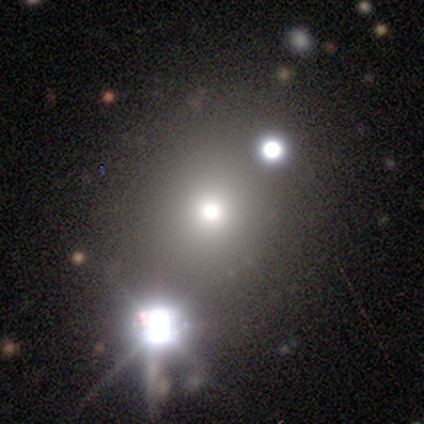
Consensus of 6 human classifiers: A smooth galaxy with no disk features (67%) that is round (100%). Merging: none (100%).